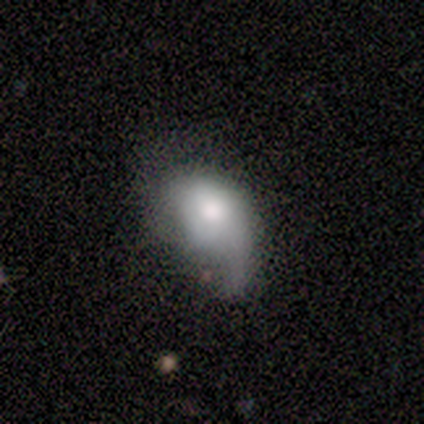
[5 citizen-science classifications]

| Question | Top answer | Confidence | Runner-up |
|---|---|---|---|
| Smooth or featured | smooth | 100% | — |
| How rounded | in between | 100% | — |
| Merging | minor disturbance | 60% | major disturbance (40%) |